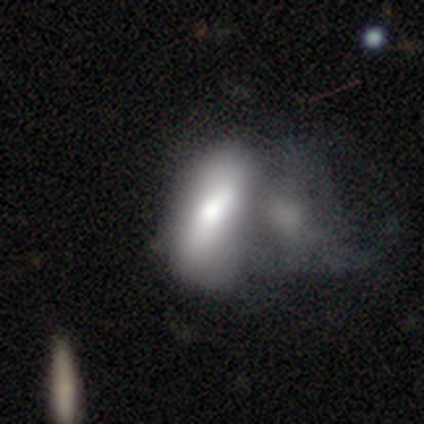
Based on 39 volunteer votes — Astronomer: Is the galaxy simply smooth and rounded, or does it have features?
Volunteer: smooth — 51% (runner-up: featured or disk, 44%).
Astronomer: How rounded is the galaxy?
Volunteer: in between — 90%.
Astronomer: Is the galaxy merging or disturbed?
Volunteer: merger — 43% (runner-up: major disturbance, 24%).